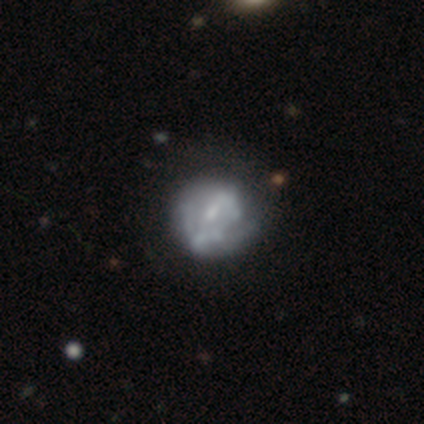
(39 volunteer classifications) A featured or disk galaxy (74%) with no bar (52%), no spiral arms (59%) and a small central bulge (55%).

Vote fractions:
- Smooth or featured? featured or disk: 74% / smooth: 23% / star or artifact: 3%
- Edge-on disk? no: 100% / yes: 0%
- Bar? no: 52% / weak: 48% / strong: 0%
- Spiral arms? no: 59% / yes: 41%
- Bulge size? small: 55% / none: 28% / moderate: 17% / dominant: 0% / large: 0%
- Merging? none: 32% / minor disturbance: 18% / major disturbance: 18% / merger: 11%